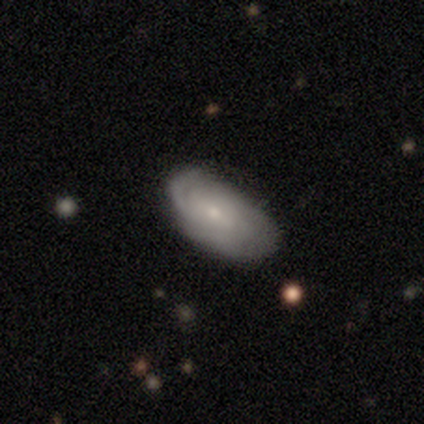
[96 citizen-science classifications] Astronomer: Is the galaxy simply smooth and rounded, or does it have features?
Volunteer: featured or disk — 53% (runner-up: smooth, 41%).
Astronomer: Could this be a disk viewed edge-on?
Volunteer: no — 98%.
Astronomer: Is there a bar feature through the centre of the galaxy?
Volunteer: no — 62%.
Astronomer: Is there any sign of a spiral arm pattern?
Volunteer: yes — 86%.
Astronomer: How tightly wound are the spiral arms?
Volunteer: tight — 65%.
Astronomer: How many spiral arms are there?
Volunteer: can't tell — 65%.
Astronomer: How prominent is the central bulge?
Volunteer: small — 86%.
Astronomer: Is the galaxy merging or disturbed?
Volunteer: none — 69%.